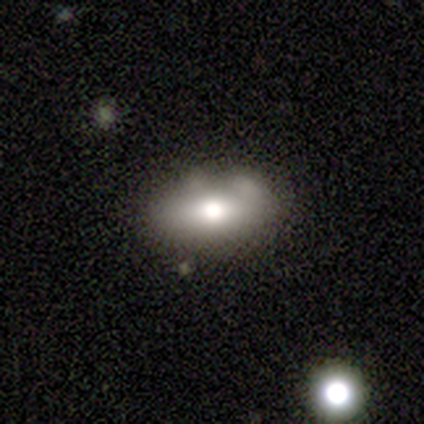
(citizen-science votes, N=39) A smooth galaxy with no disk features (67%) that is in between round and cigar-shaped (85%). Merging: none (62%).